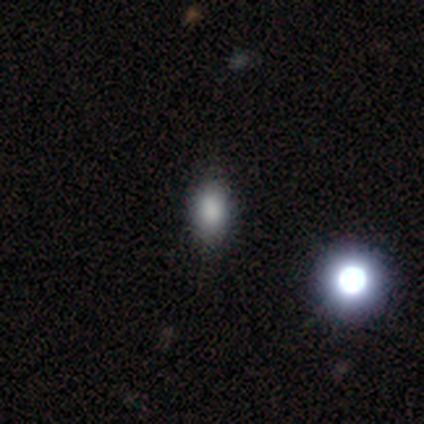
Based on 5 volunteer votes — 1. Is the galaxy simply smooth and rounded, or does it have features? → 40% smooth (tied), 40% star or artifact (tied), 20% featured or disk.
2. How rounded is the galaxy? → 100% in between, 0% round, 0% cigar-shaped.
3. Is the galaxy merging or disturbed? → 67% none, 33% minor disturbance, 0% major disturbance, 0% merger.